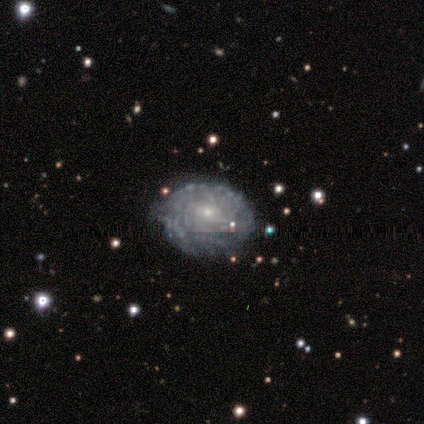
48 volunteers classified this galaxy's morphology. featured or disk 90%, smooth 6%, star or artifact 4%. Down the decision tree: edge-on disk — no (98%); bar — no (83%); spiral arms — yes (90%); spiral arm count — more than 4 (42%); spiral winding — tight (92%); bulge size — small (67%); merging — none (63%).